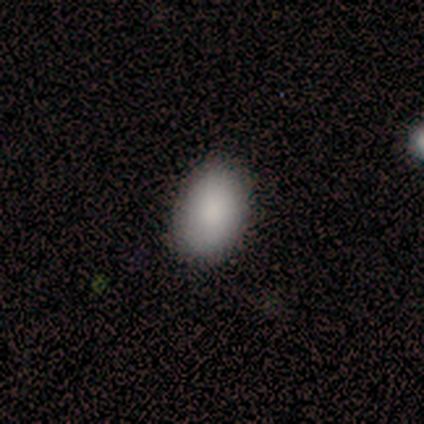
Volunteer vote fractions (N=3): A smooth galaxy with no disk features (100%) that is in between round and cigar-shaped (100%). Merging: none (67%).